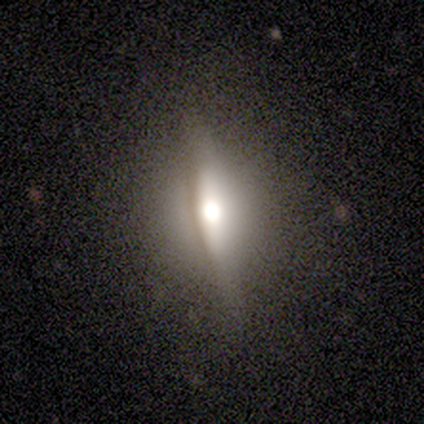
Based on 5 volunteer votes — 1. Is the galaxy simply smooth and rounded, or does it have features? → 80% featured or disk, 20% smooth, 0% star or artifact.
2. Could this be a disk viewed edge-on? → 100% yes, 0% no.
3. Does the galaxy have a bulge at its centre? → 75% rounded, 25% boxy, 0% none.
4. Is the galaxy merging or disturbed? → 100% none, 0% minor disturbance, 0% major disturbance, 0% merger.